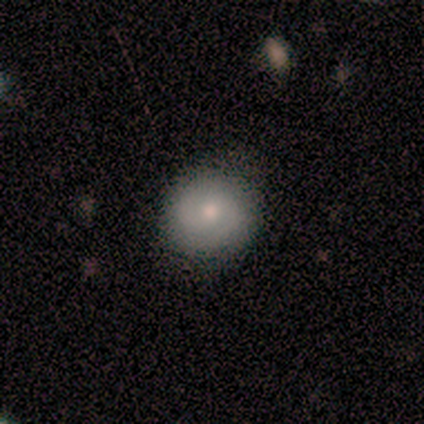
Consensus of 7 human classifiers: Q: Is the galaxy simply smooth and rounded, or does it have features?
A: smooth — 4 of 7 (57%).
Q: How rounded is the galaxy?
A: round — 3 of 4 (75%).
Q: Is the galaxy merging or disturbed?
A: none — 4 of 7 (57%).